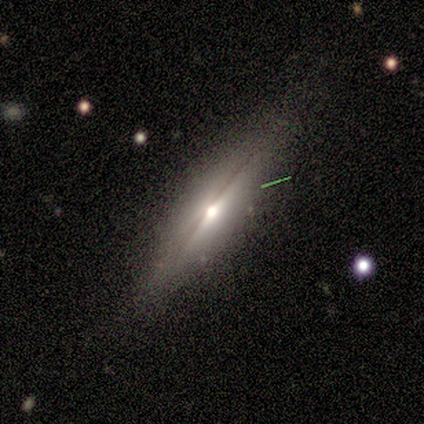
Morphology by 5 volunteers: Q: Smooth or featured?
A: featured or disk (60%); runner-up: smooth (40%)
Q: Edge-on disk?
A: yes (67%); runner-up: no (33%)
Q: Edge-on bulge?
A: rounded (100%)
Q: Merging?
A: none (80%); runner-up: major disturbance (20%)